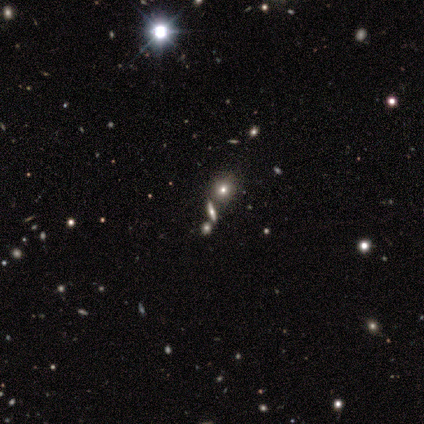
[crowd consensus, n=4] smooth_or_featured: star or artifact (p=0.75) [alt: featured or disk p=0.25]